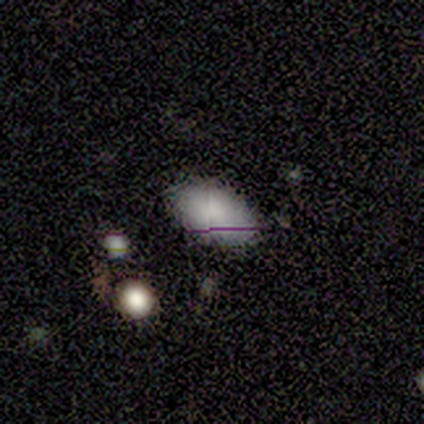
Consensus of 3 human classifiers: This is likely a smooth galaxy (67%). How rounded: clearly in between (100%). Merging: possibly none (50%, tied with merger).